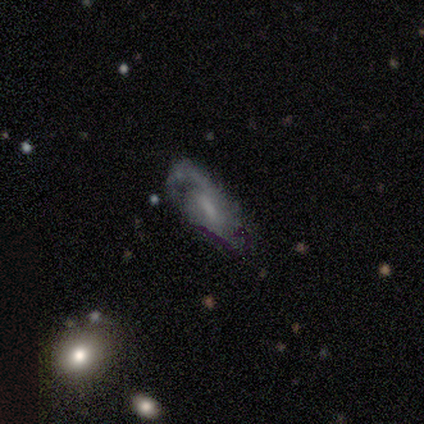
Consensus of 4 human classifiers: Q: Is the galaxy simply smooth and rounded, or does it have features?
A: featured or disk — 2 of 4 (50%).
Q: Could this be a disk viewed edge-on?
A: no — 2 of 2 (100%).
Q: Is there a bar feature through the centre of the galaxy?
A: weak — 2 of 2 (100%).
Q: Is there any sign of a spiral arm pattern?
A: yes — 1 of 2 (50%, tied with no).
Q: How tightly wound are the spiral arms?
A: loose — 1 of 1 (100%).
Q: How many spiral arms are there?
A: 2 — 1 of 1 (100%).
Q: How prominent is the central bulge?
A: small — 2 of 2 (100%).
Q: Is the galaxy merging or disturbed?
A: none — 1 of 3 (33%, tied with minor disturbance and merger).